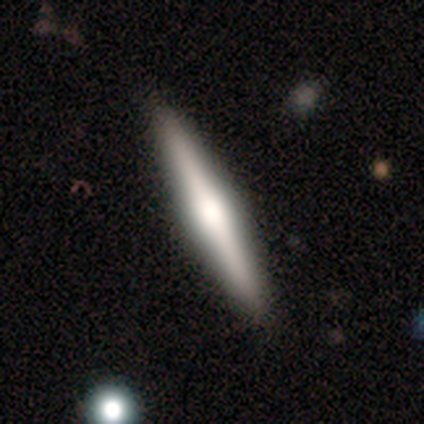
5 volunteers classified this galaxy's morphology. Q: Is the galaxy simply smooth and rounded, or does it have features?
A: featured or disk — 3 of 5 (60%).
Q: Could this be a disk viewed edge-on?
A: yes — 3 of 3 (100%).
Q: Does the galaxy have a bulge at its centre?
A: boxy — 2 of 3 (67%).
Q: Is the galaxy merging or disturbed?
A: none — 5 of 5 (100%).